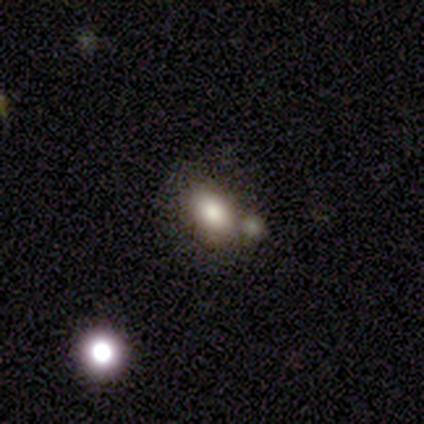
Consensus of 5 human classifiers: smooth_or_featured: smooth (p=0.60) [alt: featured or disk p=0.40]
how_rounded: in between (p=1.00)
merging: merger (p=0.60) [alt: none p=0.40]